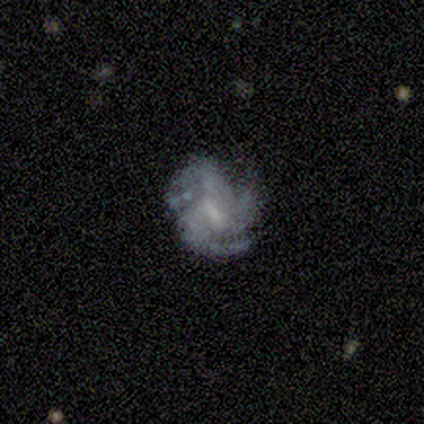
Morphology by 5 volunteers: Smooth or featured? 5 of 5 (100%) said featured or disk. Edge-on disk? 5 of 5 (100%) said no. Bar? 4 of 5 (80%) said weak. Spiral arms? 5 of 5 (100%) said yes. Spiral winding? 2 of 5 (40%, tied with medium) said tight. Spiral arm count? 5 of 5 (100%) said 3. Bulge size? 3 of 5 (60%) said moderate. Merging? 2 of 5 (40%, tied with major disturbance) said minor disturbance.